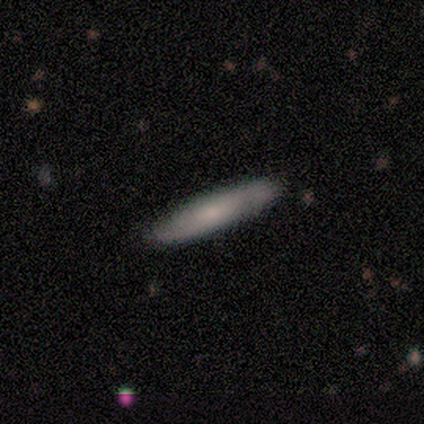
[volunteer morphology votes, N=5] Volunteers were most divided on "how rounded": cigar-shaped: 67%, in between: 33%, round: 0%. More confident: merging — none (100%); smooth or featured — smooth (60%).